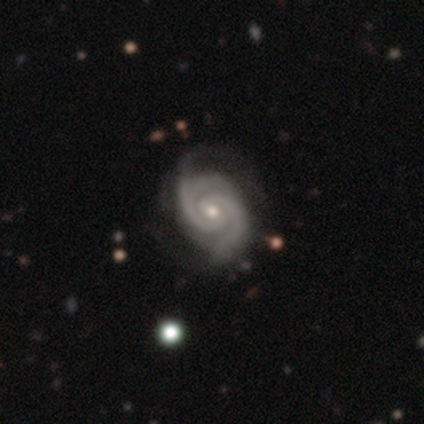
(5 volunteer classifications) Smooth or featured?
  - featured or disk: 100% *
  - smooth: 0%
  - star or artifact: 0%
Edge-on disk?
  - no: 100% *
  - yes: 0%
Bar?
  - weak: 60% *
  - no: 40%
  - strong: 0%
Spiral arms?
  - yes: 100% *
  - no: 0%
Spiral winding?
  - tight: 80% *
  - medium: 20%
  - loose: 0%
Spiral arm count?
  - 2: 80% *
  - 3: 20%
  - 1: 0%
  - 4: 0%
  - more than 4: 0%
  - can't tell: 0%
Bulge size?
  - moderate: 60% *
  - small: 40%
  - dominant: 0%
  - large: 0%
  - none: 0%
Merging?
  - none: 100% *
  - minor disturbance: 0%
  - major disturbance: 0%
  - merger: 0%